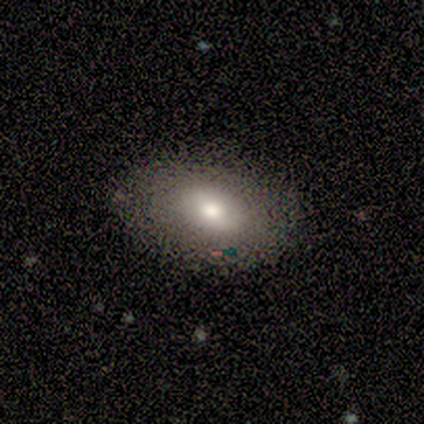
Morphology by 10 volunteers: Overall: smooth (80%). How rounded: in between (75%). Merging: none (100%).